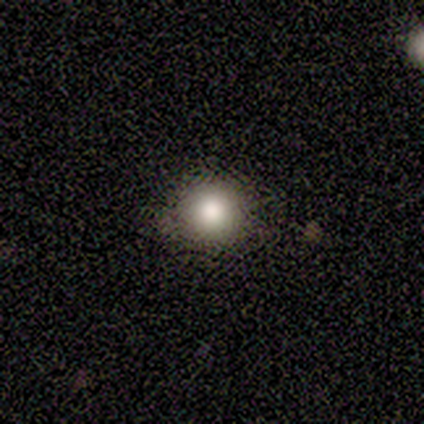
A smooth galaxy with no disk features (60%) that is round (100%).

Vote fractions:
- Smooth or featured? smooth: 60% / featured or disk: 20% / star or artifact: 20%
- How rounded? round: 100% / in between: 0% / cigar-shaped: 0%
- Merging? none: 50% / minor disturbance: 25% / merger: 25% / major disturbance: 0%